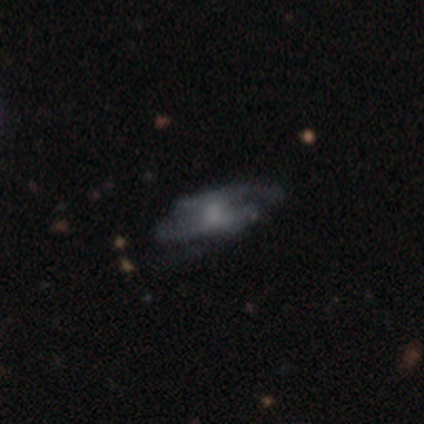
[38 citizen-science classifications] Smooth or featured: featured or disk — 55% (smooth — 26%)
Edge-on disk: no — 100%
Bar: no — 52% (weak — 29%)
Spiral arms: yes — 67% (no — 33%)
Spiral winding: medium — 36% (tied with loose — 36%)
Spiral arm count: 2 — 64% (can't tell — 36%)
Bulge size: small — 57% (moderate — 29%)
Merging: none — 61% (minor disturbance — 23%)